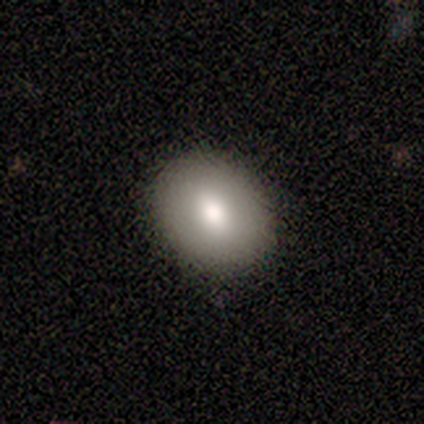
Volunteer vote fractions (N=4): Morphology: type=smooth (100%); roundness=in between (75%); merging=none (75%).